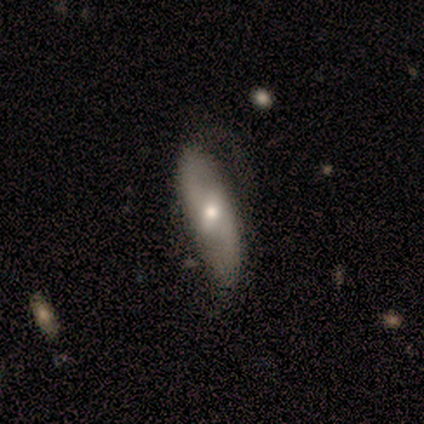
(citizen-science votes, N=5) Smooth or featured? featured or disk (80%)
Edge-on disk? no (100%)
Bar? weak (75%)
Spiral arms? yes (75%)
Spiral winding? loose (67%)
Spiral arm count? 2 (67%)
Bulge size? moderate (50%, tied with small)
Merging? none (60%)